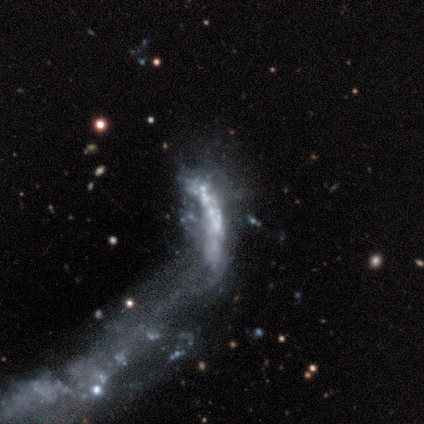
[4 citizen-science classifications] smooth-or-featured: star or artifact: 75% | featured or disk: 25% | smooth: 0%